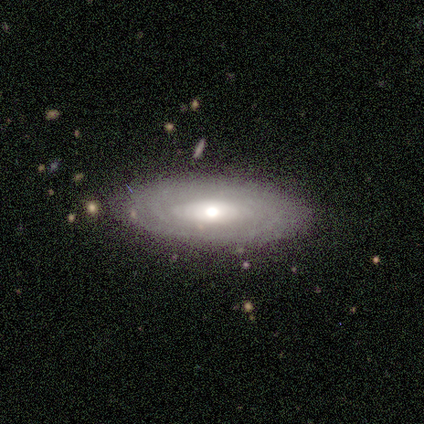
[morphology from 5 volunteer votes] Q: Smooth or featured?
A: featured or disk (60%); runner-up: smooth (40%)
Q: Edge-on disk?
A: no (100%)
Q: Bar?
A: no (67%); runner-up: weak (33%)
Q: Spiral arms?
A: no (100%)
Q: Bulge size?
A: small (67%); runner-up: moderate (33%)
Q: Merging?
A: none (80%); runner-up: minor disturbance (20%)